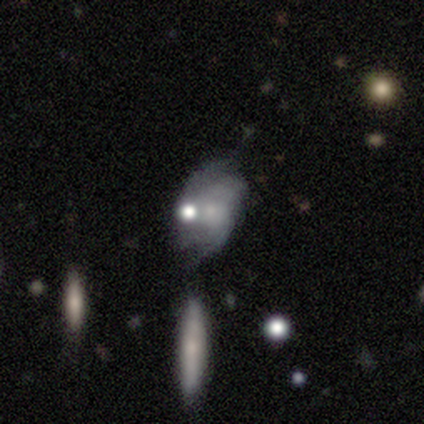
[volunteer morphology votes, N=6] Volunteers were most divided on "bulge size" (2-way tie): moderate: 40%, small: 40%, none: 20%, dominant: 0%, large: 0%; "merging" (3-way tie): none: 33%, minor disturbance: 33%, major disturbance: 33%, merger: 0%. More confident: edge-on disk — no (100%); spiral arms — yes (100%); spiral winding — tight (100%); smooth or featured — featured or disk (83%); bar — no (60%); spiral arm count — can't tell (60%).